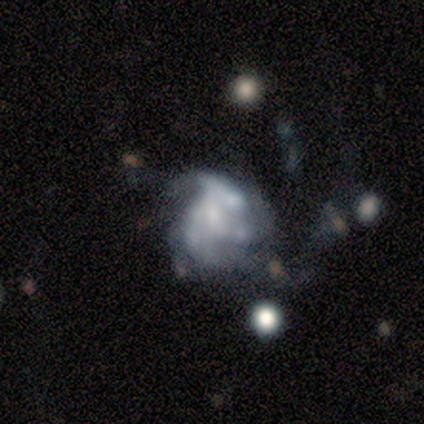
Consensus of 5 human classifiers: A featured or disk galaxy (60%) with no bar (100%), no spiral arms (67%) and a small central bulge (67%).

Vote fractions:
- Smooth or featured? featured or disk: 60% / smooth: 20% / star or artifact: 20%
- Edge-on disk? no: 100% / yes: 0%
- Bar? no: 100% / strong: 0% / weak: 0%
- Spiral arms? no: 67% / yes: 33%
- Bulge size? small: 67% / none: 33% / dominant: 0% / large: 0% / moderate: 0%
- Merging? minor disturbance: 50% / none: 25% / major disturbance: 25% / merger: 0%